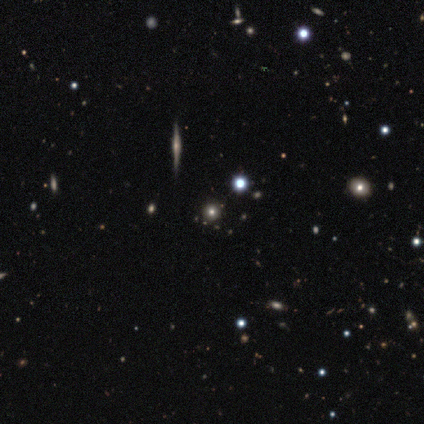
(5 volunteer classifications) Overall: star or artifact (60%; featured or disk 40%).